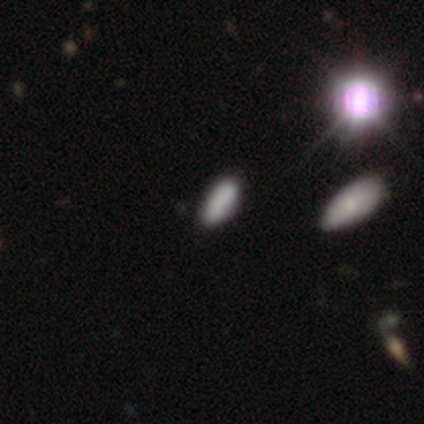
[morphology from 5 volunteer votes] This is clearly a smooth galaxy (100%). How rounded: clearly in between (100%). Merging: likely none (60%).